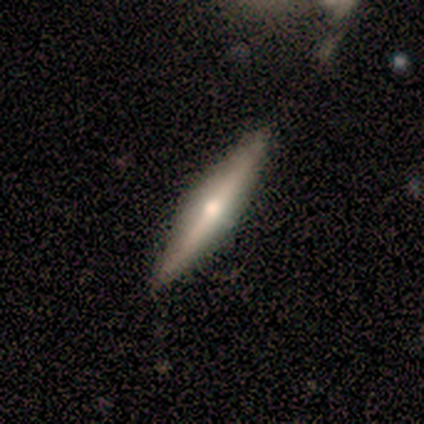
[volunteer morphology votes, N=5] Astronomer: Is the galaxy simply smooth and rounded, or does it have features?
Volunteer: featured or disk — 100%.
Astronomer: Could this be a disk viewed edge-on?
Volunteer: yes — 80%.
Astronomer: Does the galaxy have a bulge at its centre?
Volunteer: rounded — 100%.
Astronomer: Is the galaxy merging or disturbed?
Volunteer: none — 80%.